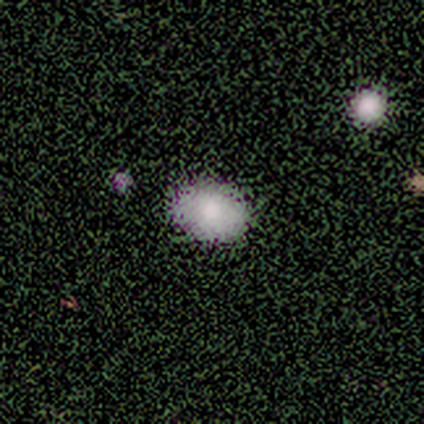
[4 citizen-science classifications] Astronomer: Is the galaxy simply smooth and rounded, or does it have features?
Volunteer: smooth — 50%, tied with star or artifact at 50%.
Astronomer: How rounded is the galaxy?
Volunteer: in between — 100%.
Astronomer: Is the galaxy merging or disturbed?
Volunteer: none — 50%, tied with minor disturbance at 50%.